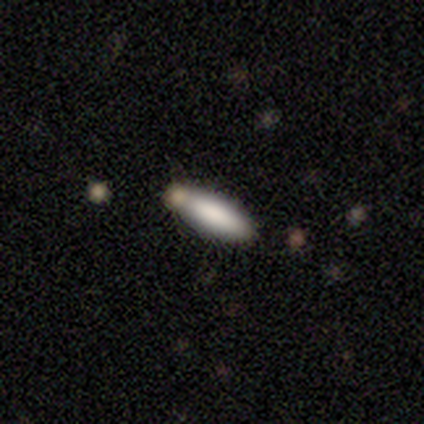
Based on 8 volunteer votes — A smooth galaxy with no disk features (88%) that is in between round and cigar-shaped (57%). Merging: none (50%).